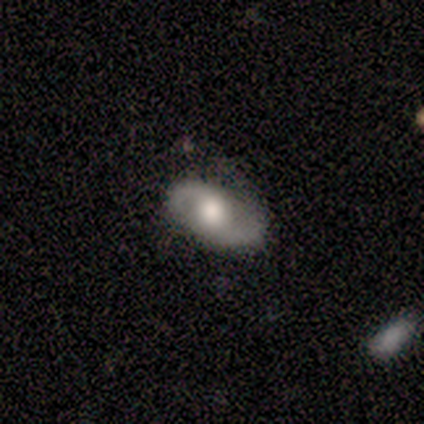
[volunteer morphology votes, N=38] Smooth or featured? featured or disk (76%)
Edge-on disk? no (97%)
Bar? no (61%)
Spiral arms? yes (75%)
Spiral winding? loose (48%)
Spiral arm count? 2 (95%)
Bulge size? large (50%)
Merging? none (73%)